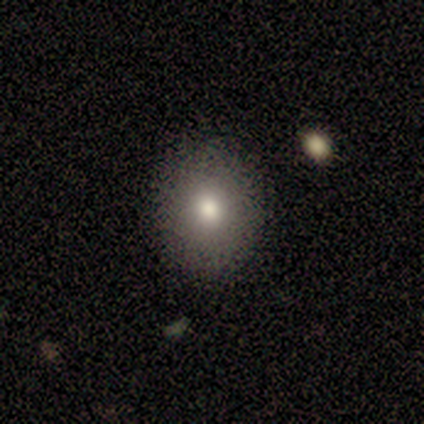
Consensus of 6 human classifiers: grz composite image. It shows a smooth galaxy with no disk features (83%) that is round (60%). Merging: none (60%).